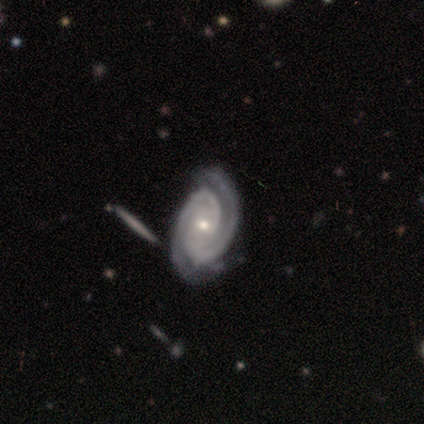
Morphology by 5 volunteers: Smooth or featured?
  - featured or disk: 100% *
  - smooth: 0%
  - star or artifact: 0%
Edge-on disk?
  - no: 100% *
  - yes: 0%
Bar?
  - no: 80% *
  - weak: 20%
  - strong: 0%
Spiral arms?
  - yes: 100% *
  - no: 0%
Spiral winding?
  - tight: 100% *
  - medium: 0%
  - loose: 0%
Spiral arm count?
  - 2: 100% *
  - 1: 0%
  - 3: 0%
  - 4: 0%
  - more than 4: 0%
  - can't tell: 0%
Bulge size?
  - small: 80% *
  - moderate: 20%
  - dominant: 0%
  - large: 0%
  - none: 0%
Merging?
  - none: 60% *
  - minor disturbance: 40%
  - major disturbance: 0%
  - merger: 0%